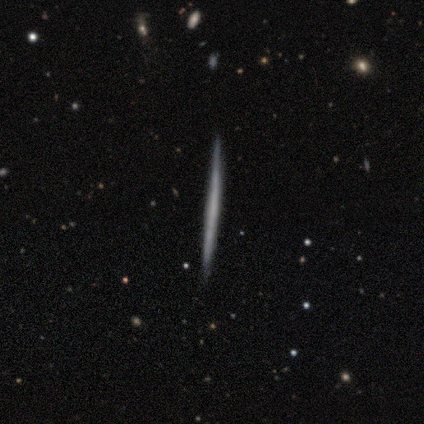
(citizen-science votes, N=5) Smooth or featured?
  - featured or disk: 80% *
  - smooth: 20%
  - star or artifact: 0%
Edge-on disk?
  - yes: 100% *
  - no: 0%
Edge-on bulge?
  - none: 100% *
  - boxy: 0%
  - rounded: 0%
Merging?
  - none: 100% *
  - minor disturbance: 0%
  - major disturbance: 0%
  - merger: 0%